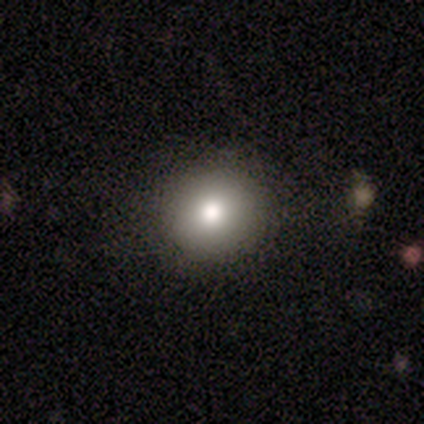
Smooth or featured? smooth (40%, tied with featured or disk)
How rounded? round (100%)
Merging? none (100%)